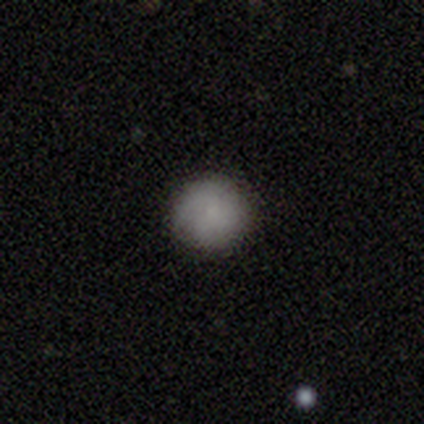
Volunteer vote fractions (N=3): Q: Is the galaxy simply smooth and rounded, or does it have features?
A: smooth — 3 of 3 (100%).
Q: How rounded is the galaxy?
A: round — 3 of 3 (100%).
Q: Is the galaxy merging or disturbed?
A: none — 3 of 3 (100%).